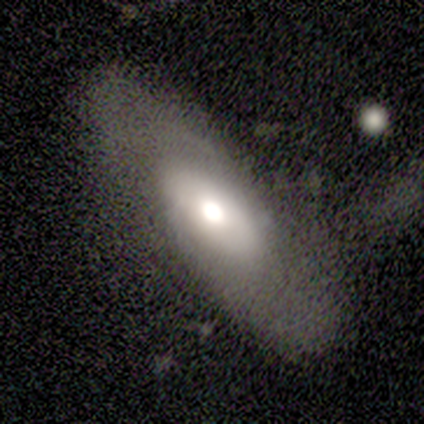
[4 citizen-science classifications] featured or disk 100%, smooth 0%, star or artifact 0%. Down the decision tree: edge-on disk — no (100%); bar — no (75%); spiral arms — yes (75%); spiral arm count — 2 (67%); spiral winding — tight (33%, tied with medium and loose); bulge size — large (50%, tied with moderate); merging — none (75%).